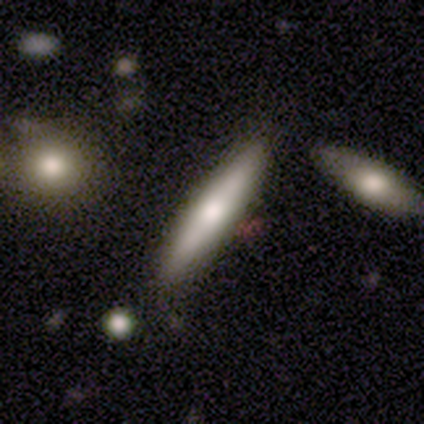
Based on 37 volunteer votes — Smooth or featured? featured or disk (51%)
Edge-on disk? yes (89%)
Edge-on bulge? rounded (65%)
Merging? none (80%)